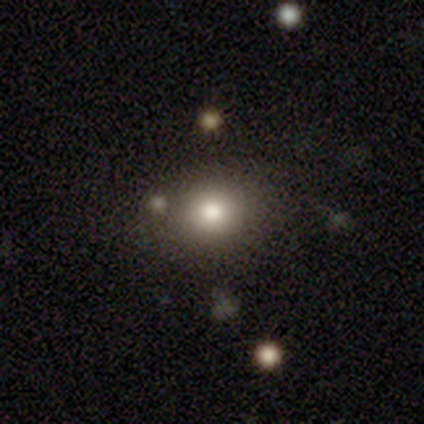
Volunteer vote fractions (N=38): Smooth or featured?
  - smooth: 71% *
  - star or artifact: 18%
  - featured or disk: 11%
How rounded?
  - round: 59% *
  - in between: 33%
  - cigar-shaped: 7%
Merging?
  - none: 81% *
  - minor disturbance: 10%
  - merger: 10%
  - major disturbance: 0%